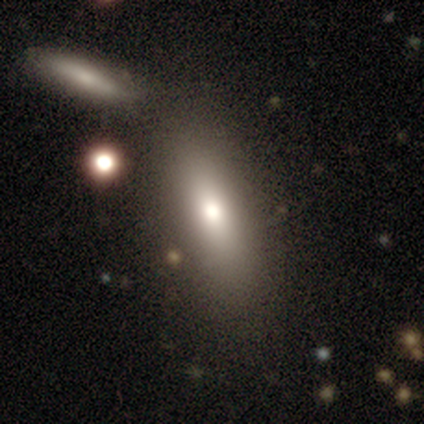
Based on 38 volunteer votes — This appears to be a smooth galaxy with no disk features (82%) that is in between round and cigar-shaped (68%). Merging: none (63%).